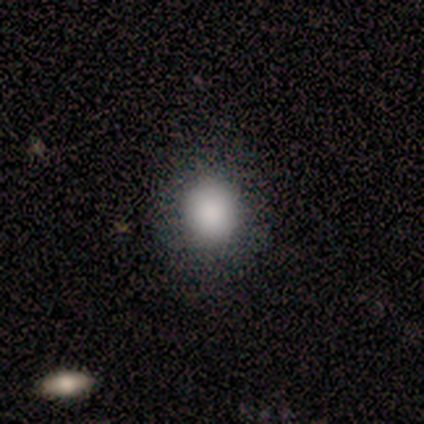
This is clearly a smooth galaxy (100%). How rounded: clearly round (80%). Merging: clearly none (80%).